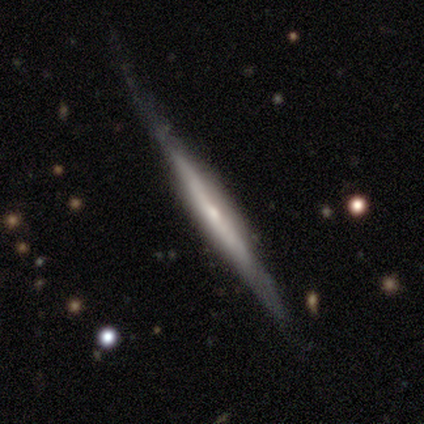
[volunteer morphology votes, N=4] Q: Smooth or featured?
A: featured or disk (75%); runner-up: star or artifact (25%)
Q: Edge-on disk?
A: yes (100%)
Q: Edge-on bulge?
A: none (67%); runner-up: rounded (33%)
Q: Merging?
A: none (100%)